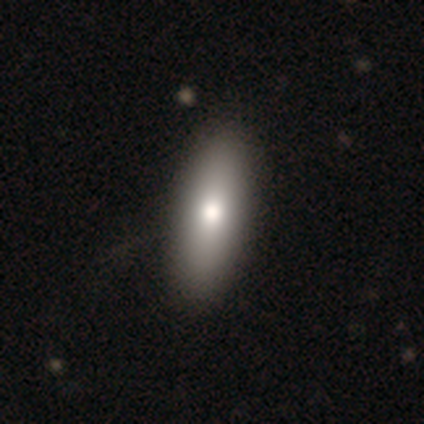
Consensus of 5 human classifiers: smooth-or-featured: smooth: 100% | featured or disk: 0% | star or artifact: 0%
  how-rounded: cigar-shaped: 60% | in between: 40% | round: 0%
  merging: none: 80% | minor disturbance: 20% | major disturbance: 0% | merger: 0%